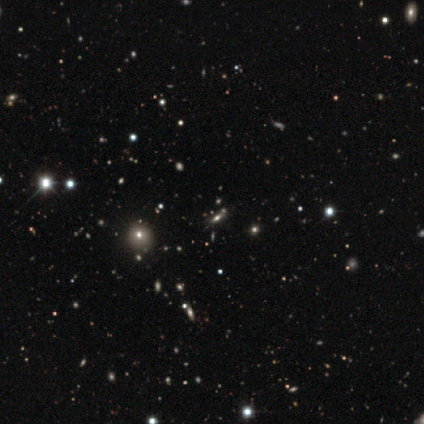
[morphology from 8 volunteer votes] A star or artifact, not a galaxy (75%).